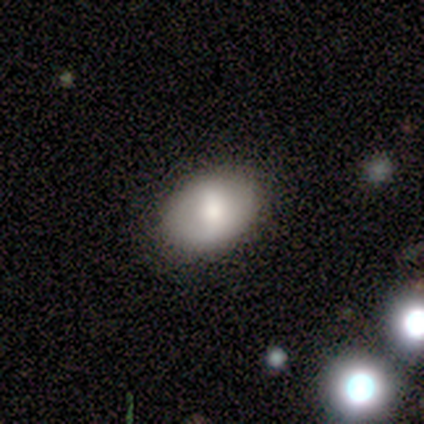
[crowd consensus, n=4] Smooth or featured?
  - smooth: 100% *
  - featured or disk: 0%
  - star or artifact: 0%
How rounded?
  - in between: 75% *
  - round: 25%
  - cigar-shaped: 0%
Merging?
  - none: 100% *
  - minor disturbance: 0%
  - major disturbance: 0%
  - merger: 0%